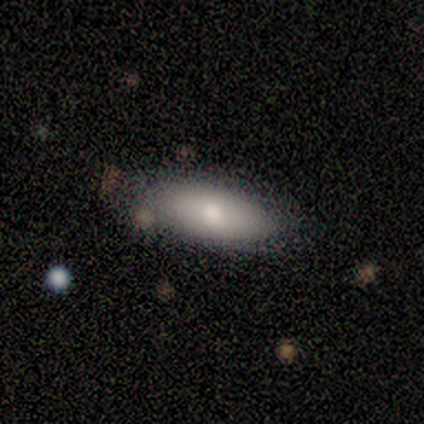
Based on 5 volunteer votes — Q: Smooth or featured?
A: smooth (60%); runner-up: featured or disk (40%)
Q: How rounded?
A: in between (100%)
Q: Merging?
A: none (100%)